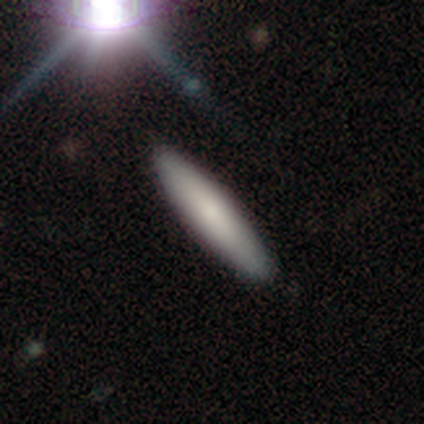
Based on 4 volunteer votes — Volunteers were most divided on "merging": none: 75%, minor disturbance: 25%, major disturbance: 0%, merger: 0%. More confident: smooth or featured — smooth (100%); how rounded — cigar-shaped (100%).